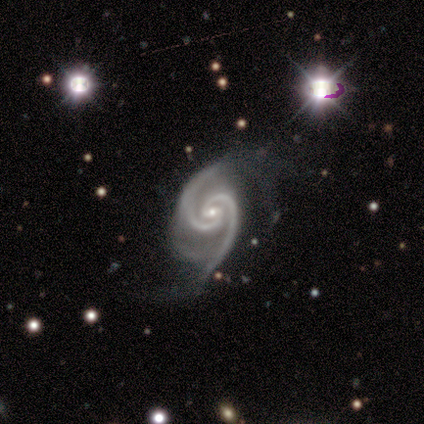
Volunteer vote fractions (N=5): This appears to be a featured or disk galaxy (100%) with a weak bar (60%), 2 (100%) tight (80%) spiral arms (100%) and a small central bulge (60%). Merging: none (60%).